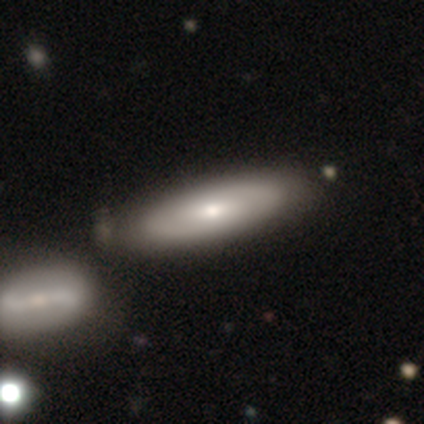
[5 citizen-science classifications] Smooth or featured?
  - smooth: 80% *
  - featured or disk: 20%
  - star or artifact: 0%
How rounded?
  - cigar-shaped: 75% *
  - in between: 25%
  - round: 0%
Merging?
  - none: 100% *
  - minor disturbance: 0%
  - major disturbance: 0%
  - merger: 0%